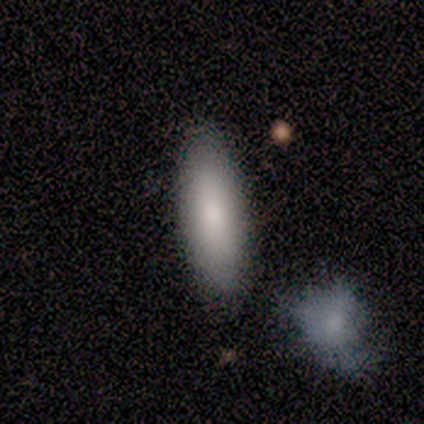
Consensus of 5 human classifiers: A smooth galaxy with no disk features (100%) that is in between round and cigar-shaped (60%).

Vote fractions:
- Smooth or featured? smooth: 100% / featured or disk: 0% / star or artifact: 0%
- How rounded? in between: 60% / cigar-shaped: 40% / round: 0%
- Merging? none: 100% / minor disturbance: 0% / major disturbance: 0% / merger: 0%